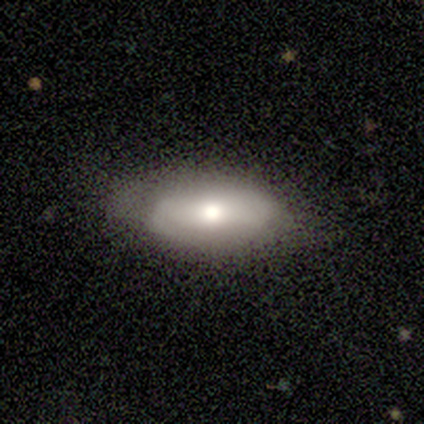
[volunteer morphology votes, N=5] Volunteers were most divided on "smooth or featured": smooth: 60%, featured or disk: 40%, star or artifact: 0%. More confident: merging — none (80%); how rounded — in between (67%).